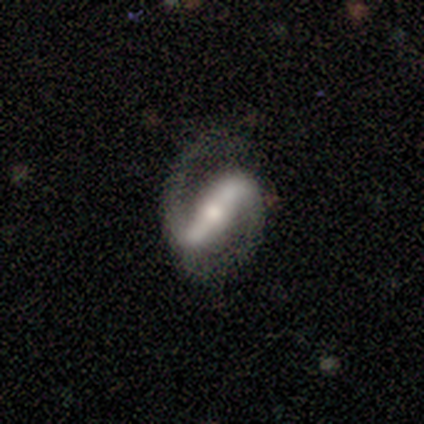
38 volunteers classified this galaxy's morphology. Q: Smooth or featured?
A: featured or disk (97%); runner-up: smooth (3%)
Q: Edge-on disk?
A: no (86%); runner-up: yes (14%)
Q: Bar?
A: strong (84%); runner-up: weak (16%)
Q: Spiral arms?
A: yes (91%); runner-up: no (9%)
Q: Spiral winding?
A: medium (48%); runner-up: loose (38%)
Q: Spiral arm count?
A: 2 (97%); runner-up: can't tell (3%)
Q: Bulge size?
A: moderate (62%); runner-up: small (31%)
Q: Merging?
A: none (63%); runner-up: major disturbance (24%)